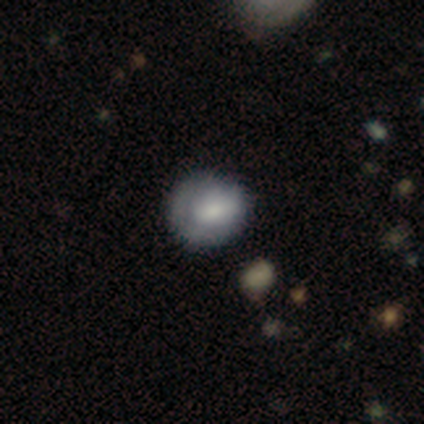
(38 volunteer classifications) smooth 58%, featured or disk 24%, star or artifact 18%. Down the decision tree: how rounded — round (86%); merging — none (55%).